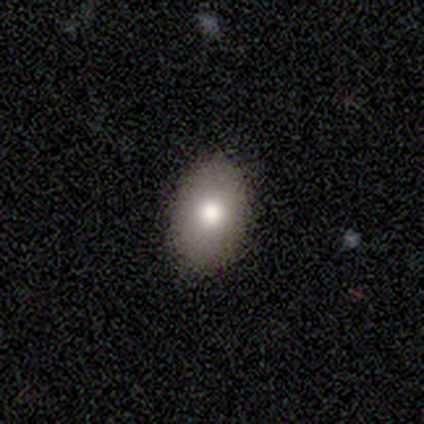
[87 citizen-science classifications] Q: Smooth or featured?
A: smooth (82%); runner-up: featured or disk (14%)
Q: How rounded?
A: in between (92%); runner-up: round (8%)
Q: Merging?
A: none (86%); runner-up: minor disturbance (12%)